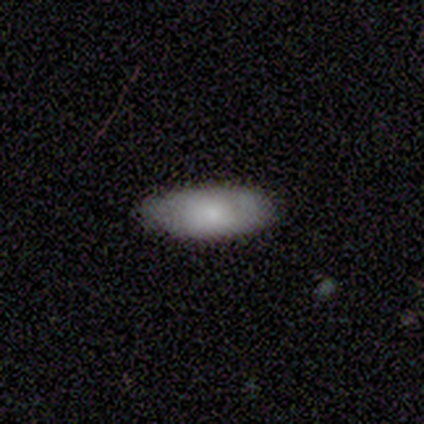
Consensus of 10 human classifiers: Smooth or featured?
  - smooth: 90% *
  - featured or disk: 10%
  - star or artifact: 0%
How rounded?
  - in between: 89% *
  - cigar-shaped: 11%
  - round: 0%
Merging?
  - none: 90% *
  - minor disturbance: 10%
  - major disturbance: 0%
  - merger: 0%